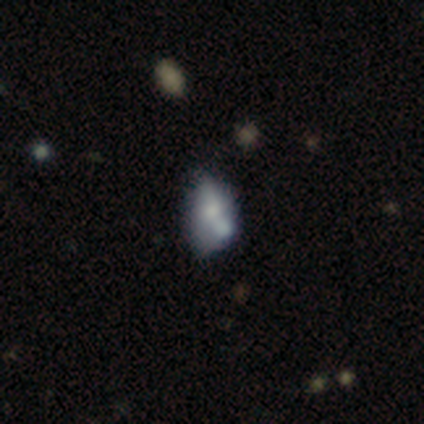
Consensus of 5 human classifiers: A featured or disk galaxy (80%) with no bar (100%), no spiral arms (100%) and a moderate central bulge (50%).

Vote fractions:
- Smooth or featured? featured or disk: 80% / star or artifact: 20% / smooth: 0%
- Edge-on disk? no: 100% / yes: 0%
- Bar? no: 100% / strong: 0% / weak: 0%
- Spiral arms? no: 100% / yes: 0%
- Bulge size? moderate: 50% / small: 25% / none: 25% / dominant: 0% / large: 0%
- Merging? merger: 50% / none: 25% / minor disturbance: 25% / major disturbance: 0%